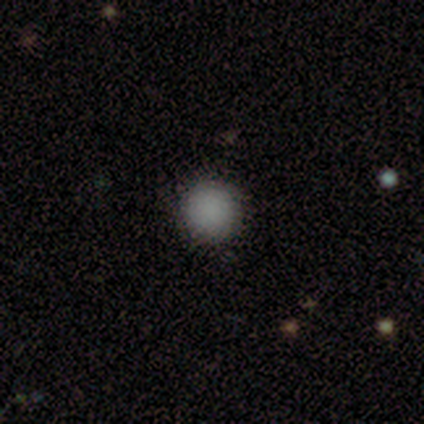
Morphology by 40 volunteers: smooth_or_featured: smooth (p=0.80) [alt: star or artifact p=0.15]
how_rounded: round (p=1.00)
merging: none (p=0.97) [alt: merger p=0.03]